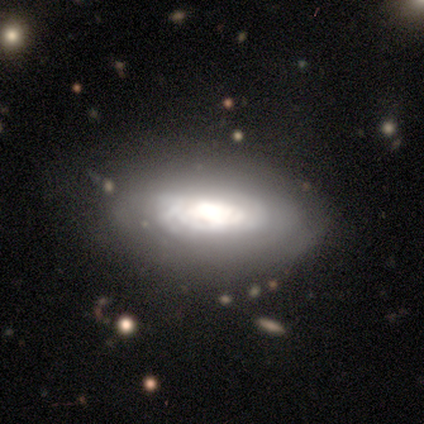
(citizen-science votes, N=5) This is clearly a featured or disk galaxy (100%). It is likely viewed edge-on (60%). Edge-on bulge: marginally boxy (33%, tied with none and rounded). Merging: likely minor disturbance (60%).